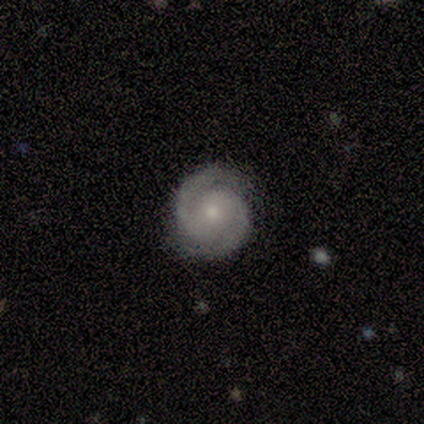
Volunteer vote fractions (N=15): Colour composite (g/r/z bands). It shows a featured or disk galaxy (93%) with no bar (54%), 2 (92%) tight (85%) spiral arms (100%) and a small central bulge (92%). Merging: none (100%).